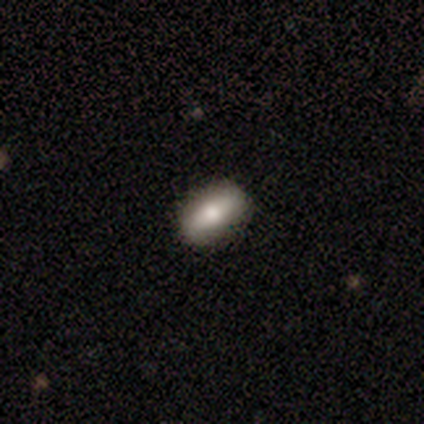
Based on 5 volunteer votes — Q: Smooth or featured?
A: smooth (60%); runner-up: featured or disk (20%)
Q: How rounded?
A: in between (100%)
Q: Merging?
A: none (100%)